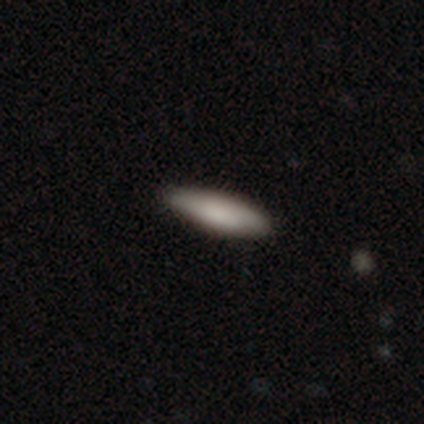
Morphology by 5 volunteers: Smooth or featured?
  - smooth: 80% *
  - featured or disk: 20%
  - star or artifact: 0%
How rounded?
  - in between: 75% *
  - cigar-shaped: 25%
  - round: 0%
Merging?
  - none: 80% *
  - minor disturbance: 20%
  - major disturbance: 0%
  - merger: 0%